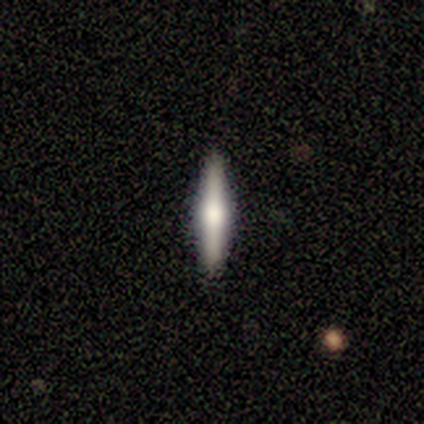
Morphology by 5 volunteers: Volunteers were most divided on "edge-on bulge": rounded: 67%, boxy: 33%, none: 0%. More confident: edge-on disk — yes (100%); merging — none (100%); smooth or featured — featured or disk (60%).